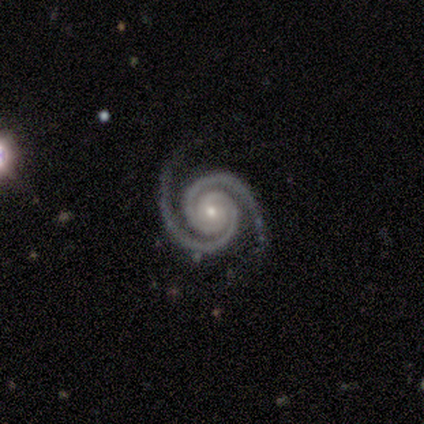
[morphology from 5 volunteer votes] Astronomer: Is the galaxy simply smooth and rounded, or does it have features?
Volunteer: featured or disk — 100%.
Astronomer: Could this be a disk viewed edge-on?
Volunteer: no — 100%.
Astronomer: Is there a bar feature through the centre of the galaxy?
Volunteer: no — 80%.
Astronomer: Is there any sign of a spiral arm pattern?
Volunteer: yes — 100%.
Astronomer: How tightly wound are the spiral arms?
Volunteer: tight — 100%.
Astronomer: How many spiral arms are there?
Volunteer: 2 — 100%.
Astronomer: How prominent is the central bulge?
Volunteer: small — 80%.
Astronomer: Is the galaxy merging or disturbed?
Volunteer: none — 100%.